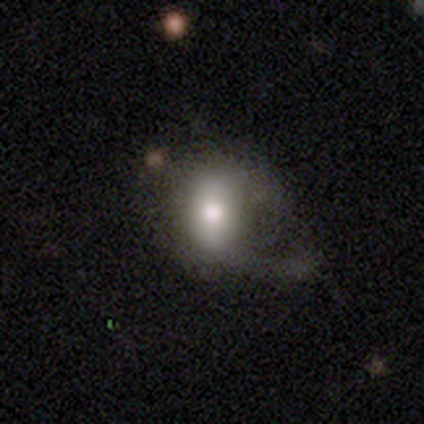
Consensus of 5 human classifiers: Smooth or featured? smooth (40%, tied with featured or disk)
How rounded? in between (100%)
Merging? major disturbance (100%)